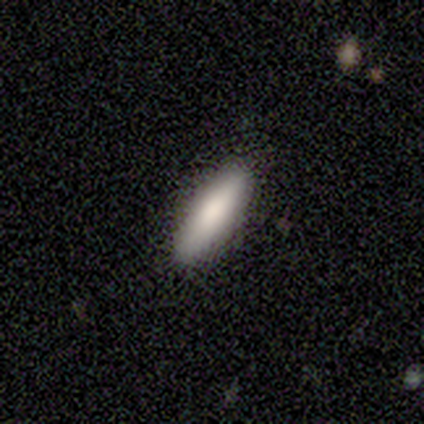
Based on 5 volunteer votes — This is clearly a smooth galaxy (80%). How rounded: likely in between (75%). Merging: clearly none (100%).